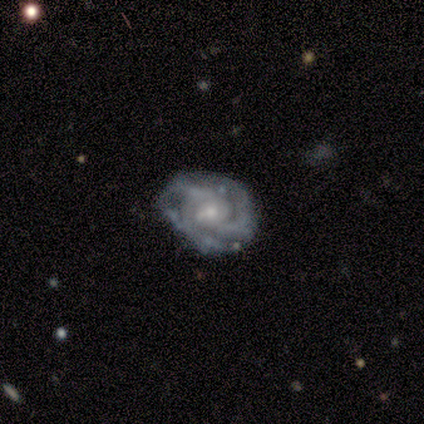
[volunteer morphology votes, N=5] featured or disk 60%, smooth 20%, star or artifact 20%. Down the decision tree: edge-on disk — no (100%); bar — strong (33%, tied with weak and no); spiral arms — yes (100%); spiral arm count — 2 (67%); spiral winding — tight (33%, tied with medium and loose); bulge size — small (100%); merging — none (25%, tied with minor disturbance, major disturbance and merger).